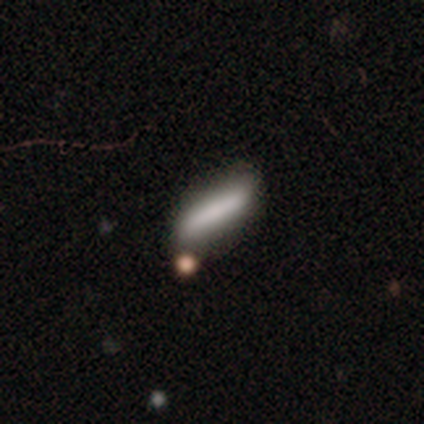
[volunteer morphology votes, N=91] smooth_or_featured: smooth (p=0.70) [alt: featured or disk p=0.24]
how_rounded: cigar-shaped (p=0.83) [alt: in between p=0.16]
merging: none (p=0.70) [alt: minor disturbance p=0.13]